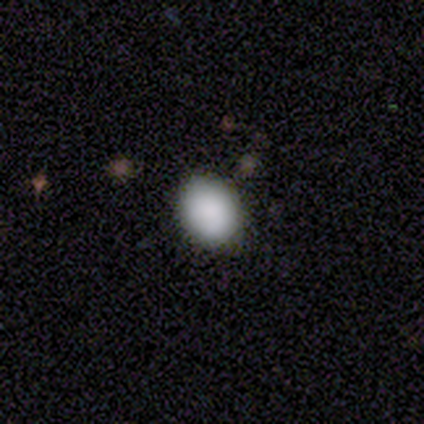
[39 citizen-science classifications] Smooth or featured?
  - smooth: 87% *
  - featured or disk: 10%
  - star or artifact: 3%
How rounded?
  - in between: 62% *
  - round: 35%
  - cigar-shaped: 3%
Merging?
  - none: 76% *
  - minor disturbance: 21%
  - major disturbance: 3%
  - merger: 0%